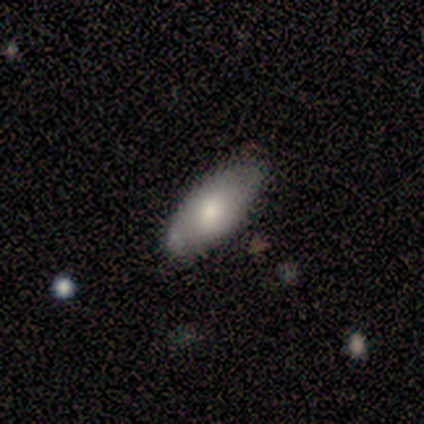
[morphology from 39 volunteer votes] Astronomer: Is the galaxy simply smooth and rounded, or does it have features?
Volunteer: smooth — 59%.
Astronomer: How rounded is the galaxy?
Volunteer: in between — 83%.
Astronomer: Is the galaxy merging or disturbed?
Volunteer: none — 78%.